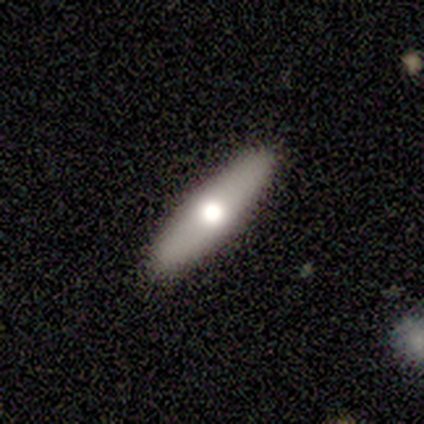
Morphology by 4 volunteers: A smooth galaxy with no disk features (100%) that is cigar-shaped (75%). Merging: none (75%).